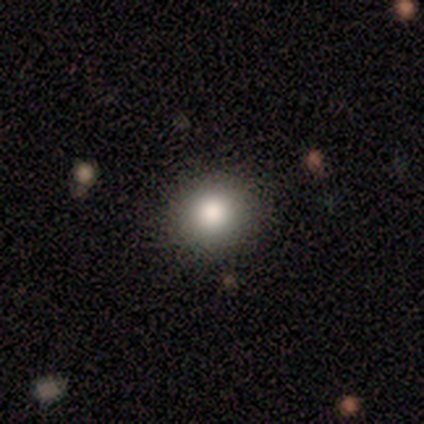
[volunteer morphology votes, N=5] A smooth galaxy with no disk features (80%) that is round (100%). Merging: none (80%).